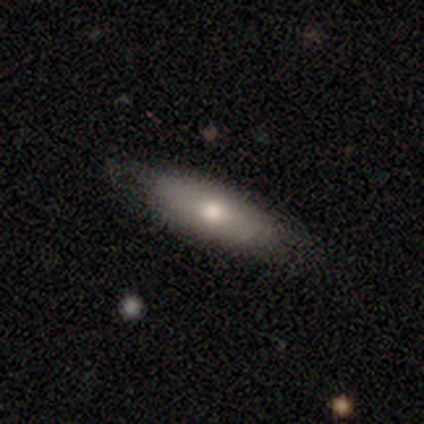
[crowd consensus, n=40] Smooth or featured? 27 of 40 (68%) said smooth. How rounded? 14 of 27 (52%) said in between. Merging? 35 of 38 (92%) said none.